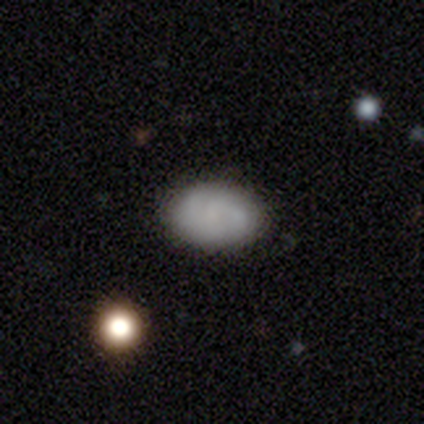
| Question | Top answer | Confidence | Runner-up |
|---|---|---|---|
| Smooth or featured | smooth | 64% | featured or disk (29%) |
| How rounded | in between | 89% | round (11%) |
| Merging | none | 84% | minor disturbance (13%) |